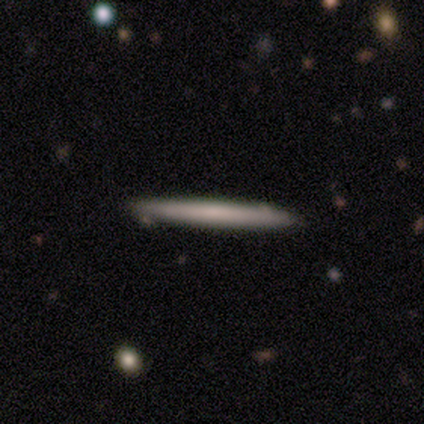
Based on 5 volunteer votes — Morphology: type=smooth (40%, tied with featured or disk); roundness=cigar-shaped (100%); merging=none (100%).